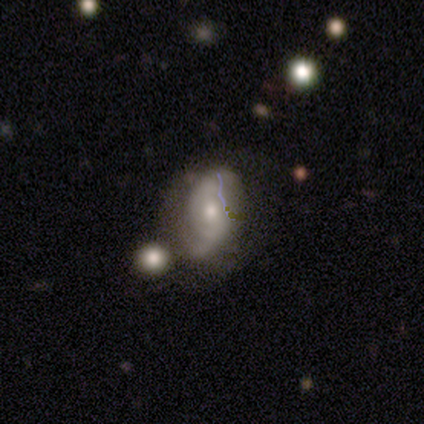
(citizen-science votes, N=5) Smooth or featured: featured or disk — 100%
Edge-on disk: no — 100%
Bar: no — 60% (weak — 40%)
Spiral arms: yes — 60% (no — 40%)
Spiral winding: loose — 67% (medium — 33%)
Spiral arm count: 2 — 33% (tied with 3 — 33%; can't tell — 33%)
Bulge size: small — 60% (moderate — 40%)
Merging: none — 60% (minor disturbance — 40%)